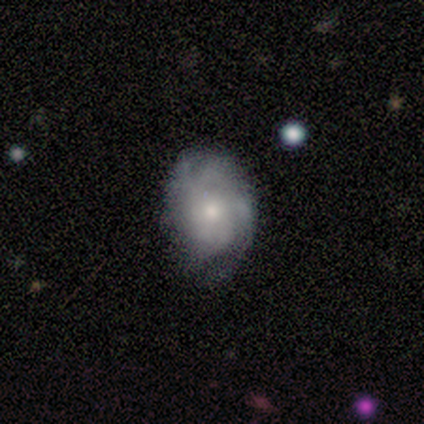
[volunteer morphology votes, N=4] Q: Smooth or featured?
A: smooth (50%); tied with: featured or disk (50%)
Q: How rounded?
A: round (50%); tied with: in between (50%)
Q: Merging?
A: none (75%); runner-up: minor disturbance (25%)